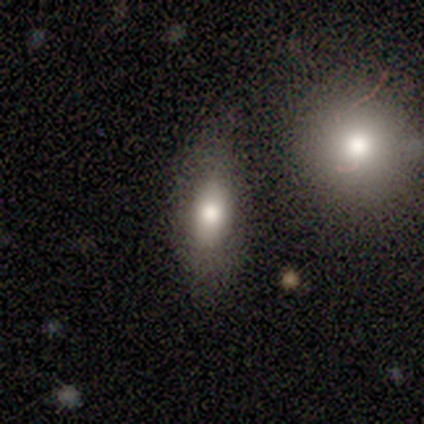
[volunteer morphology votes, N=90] smooth-or-featured: smooth: 66% | featured or disk: 21% | star or artifact: 13%
  how-rounded: in between: 69% | cigar-shaped: 24% | round: 7%
  merging: none: 71% | minor disturbance: 18% | merger: 9% | major disturbance: 3%